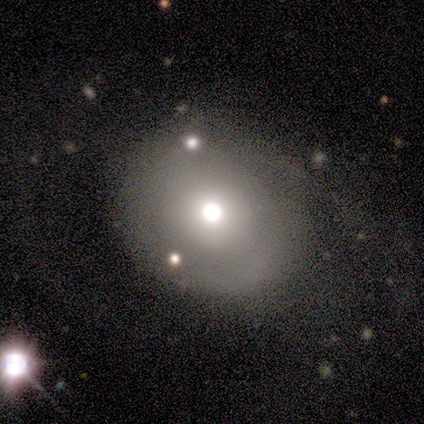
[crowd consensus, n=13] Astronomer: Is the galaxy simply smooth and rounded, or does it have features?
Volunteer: smooth — 62%.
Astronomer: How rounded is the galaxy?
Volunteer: round — 100%.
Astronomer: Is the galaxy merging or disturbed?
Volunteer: none — 55%.